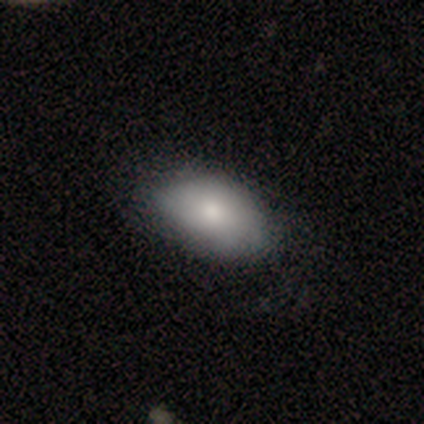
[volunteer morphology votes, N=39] Smooth or featured: smooth — 77% (featured or disk — 23%)
How rounded: in between — 97% (round — 3%)
Merging: none — 56% (minor disturbance — 8%)